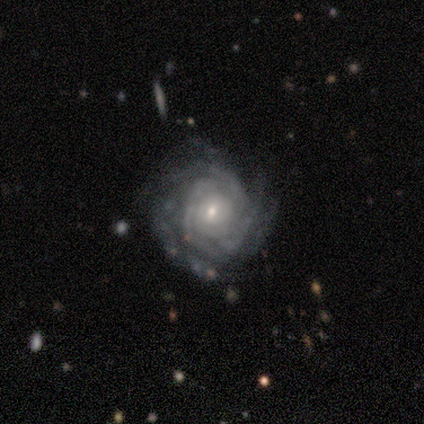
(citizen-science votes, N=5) Smooth or featured? 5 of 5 (100%) said featured or disk. Edge-on disk? 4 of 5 (80%) said no. Bar? 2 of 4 (50%) said weak. Spiral arms? 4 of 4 (100%) said yes. Spiral winding? 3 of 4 (75%) said tight. Spiral arm count? 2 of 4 (50%) said 3. Bulge size? 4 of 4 (100%) said small. Merging? 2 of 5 (40%, tied with major disturbance) said none.